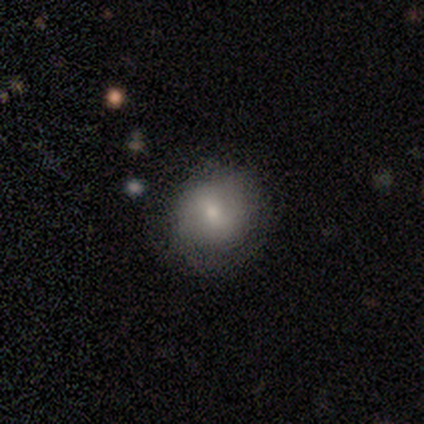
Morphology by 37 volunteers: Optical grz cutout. It shows a smooth galaxy with no disk features (70%) that is round (81%). Merging: none (77%).